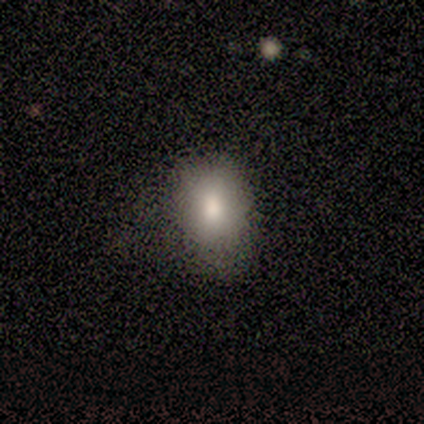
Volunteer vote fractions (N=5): Smooth or featured? 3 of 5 (60%) said smooth. How rounded? 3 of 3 (100%) said in between. Merging? 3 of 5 (60%) said none.